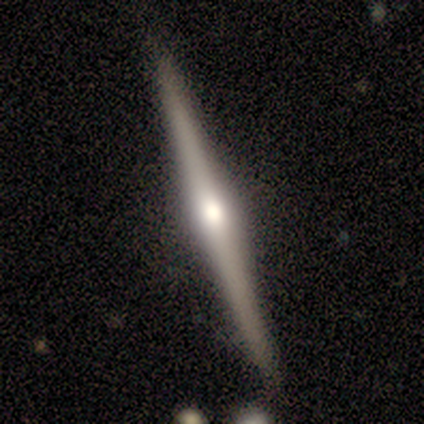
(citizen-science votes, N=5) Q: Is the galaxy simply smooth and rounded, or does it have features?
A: featured or disk — 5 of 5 (100%).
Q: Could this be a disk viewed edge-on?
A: yes — 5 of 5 (100%).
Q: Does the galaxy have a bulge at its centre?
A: rounded — 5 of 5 (100%).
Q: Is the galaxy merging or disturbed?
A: none — 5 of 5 (100%).